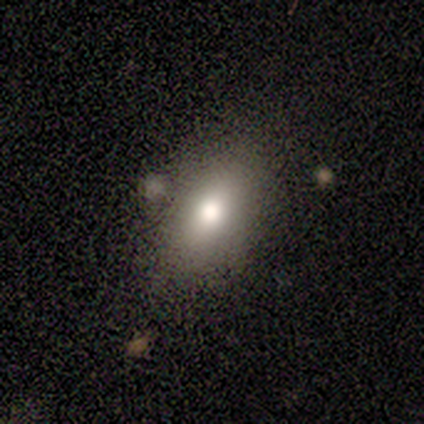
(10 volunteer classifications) This appears to be a smooth galaxy with no disk features (80%) that is in between round and cigar-shaped (100%). Merging: none (67%).